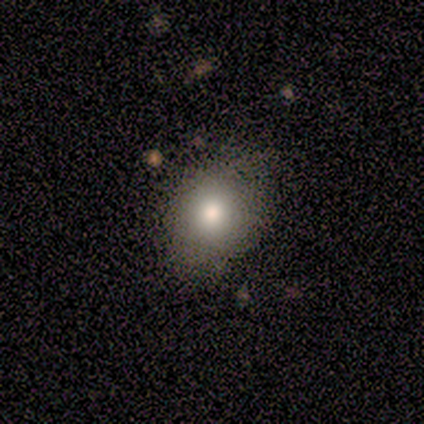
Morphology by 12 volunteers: This is likely a smooth galaxy (75%). How rounded: likely round (78%). Merging: likely none (60%).